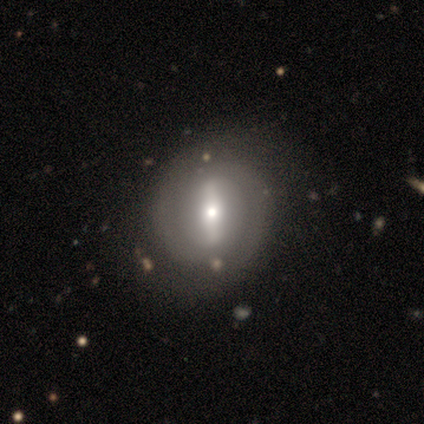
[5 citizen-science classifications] Smooth or featured? 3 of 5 (60%) said featured or disk. Edge-on disk? 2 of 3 (67%) said no. Bar? 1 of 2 (50%, tied with weak) said strong. Spiral arms? 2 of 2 (100%) said yes. Spiral winding? 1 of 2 (50%, tied with medium) said tight. Spiral arm count? 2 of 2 (100%) said 2. Bulge size? 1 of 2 (50%, tied with small) said moderate. Merging? 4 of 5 (80%) said none.